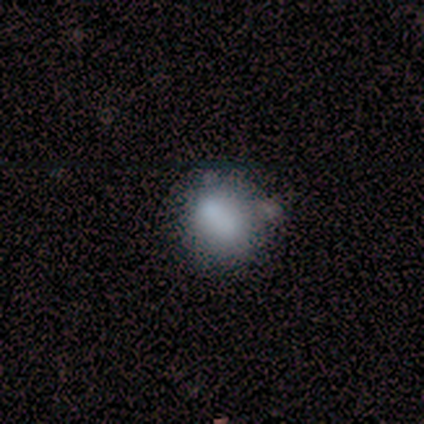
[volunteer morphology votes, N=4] Smooth or featured? 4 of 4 (100%) said smooth. How rounded? 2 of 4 (50%, tied with in between) said round. Merging? 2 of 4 (50%, tied with major disturbance) said none.